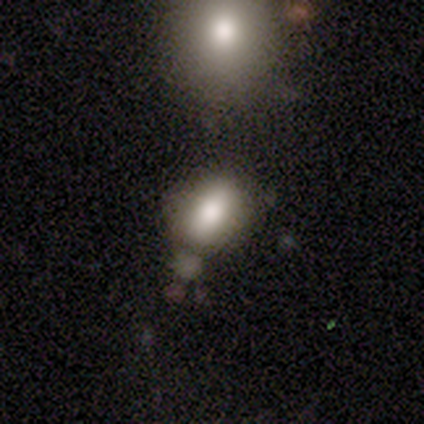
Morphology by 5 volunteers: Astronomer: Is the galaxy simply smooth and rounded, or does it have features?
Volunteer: smooth — 100%.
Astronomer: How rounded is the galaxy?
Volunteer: in between — 100%.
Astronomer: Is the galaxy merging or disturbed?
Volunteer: none — 80%.